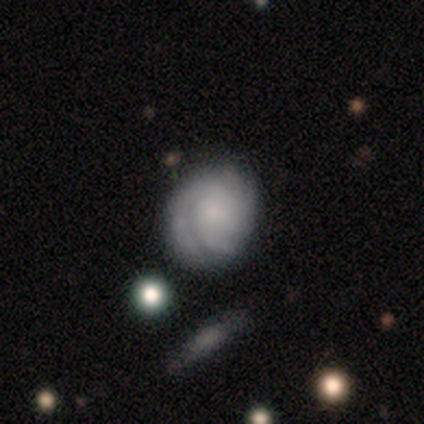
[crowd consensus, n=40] Overall: featured or disk (60%; smooth 30%). Edge-on disk: no (100%). Bar: no (88%). Spiral arms: yes (96%). Spiral arm count: can't tell (35%; 3 30%). Spiral winding: tight (70%). Bulge size: small (50%; none 21%). Merging: none (75%).